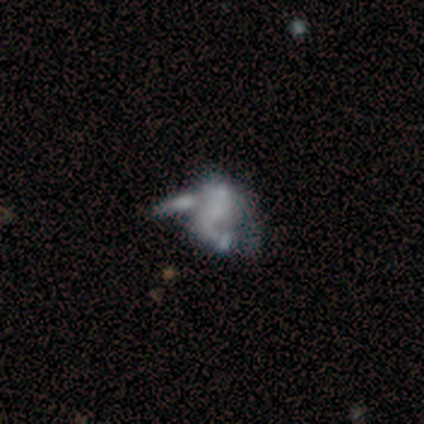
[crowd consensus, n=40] Volunteers were most divided on "spiral arms" (2-way tie): yes: 50%, no: 50%. More confident: edge-on disk — no (95%); bar — no (85%); bulge size — none (75%); spiral arm count — 2 (70%); spiral winding — loose (60%); smooth or featured — featured or disk (52%); merging — merger (51%).